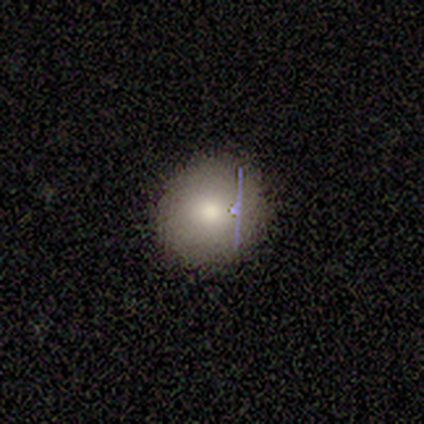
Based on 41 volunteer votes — Smooth or featured?
  - smooth: 76% *
  - featured or disk: 12%
  - star or artifact: 12%
How rounded?
  - round: 87% *
  - in between: 13%
  - cigar-shaped: 0%
Merging?
  - none: 94% *
  - minor disturbance: 6%
  - major disturbance: 0%
  - merger: 0%